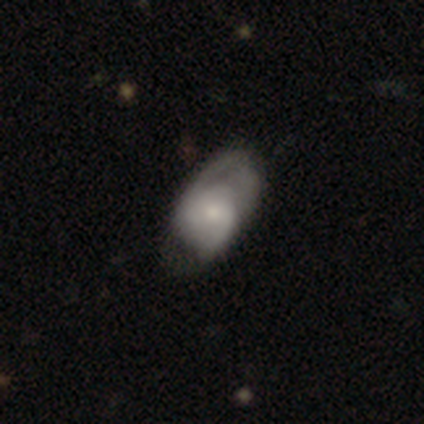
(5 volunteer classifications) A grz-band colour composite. It shows a featured or disk galaxy (60%) with a weak bar (67%), 2 (100%) medium (100%) spiral arms (100%) and a small central bulge (100%). Merging: none (40%, tied with major disturbance).